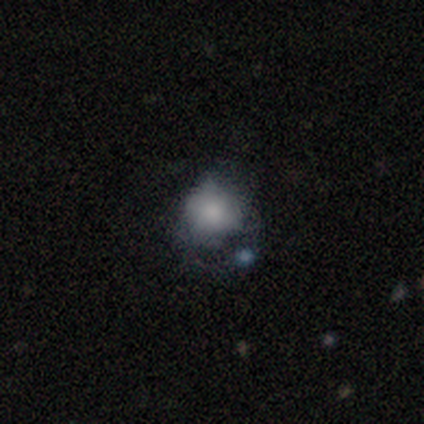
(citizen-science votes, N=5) Smooth or featured: smooth — 60% (featured or disk — 40%)
How rounded: round — 100%
Merging: minor disturbance — 40% (none — 20%)